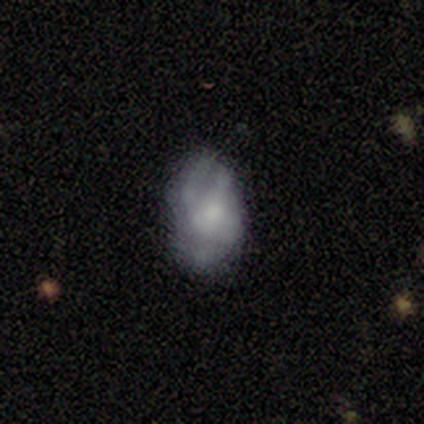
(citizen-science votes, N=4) This appears to be a smooth galaxy with no disk features (75%) that is in between round and cigar-shaped (100%). Merging: none (50%, tied with minor disturbance).